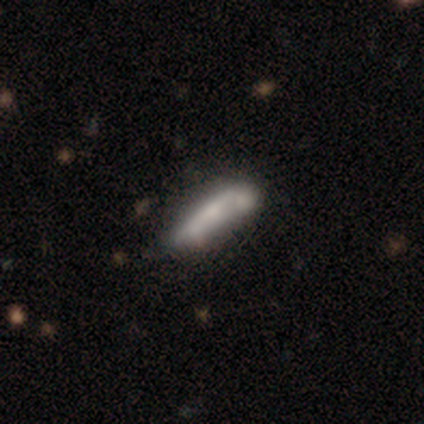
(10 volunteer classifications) Smooth or featured? smooth (80%)
How rounded? cigar-shaped (62%)
Merging? none (70%)